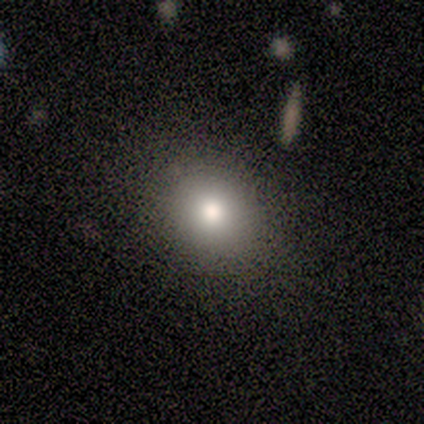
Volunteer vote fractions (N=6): This appears to be a smooth galaxy with no disk features (100%) that is round (83%). Merging: none (100%).